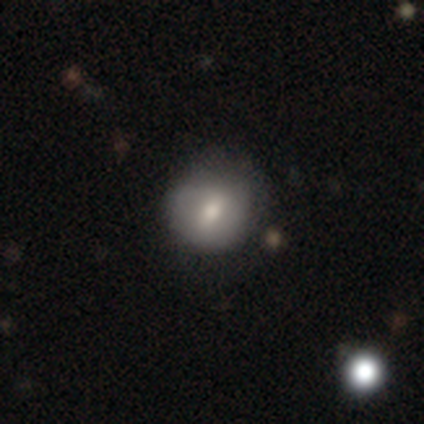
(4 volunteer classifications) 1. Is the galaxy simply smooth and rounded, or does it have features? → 100% smooth, 0% featured or disk, 0% star or artifact.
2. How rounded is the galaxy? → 100% round, 0% in between, 0% cigar-shaped.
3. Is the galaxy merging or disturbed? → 75% none, 25% minor disturbance, 0% major disturbance, 0% merger.